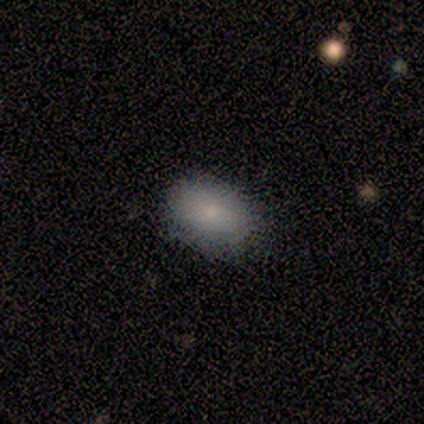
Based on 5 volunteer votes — Smooth or featured: smooth — 100%
How rounded: in between — 80% (round — 20%)
Merging: none — 100%